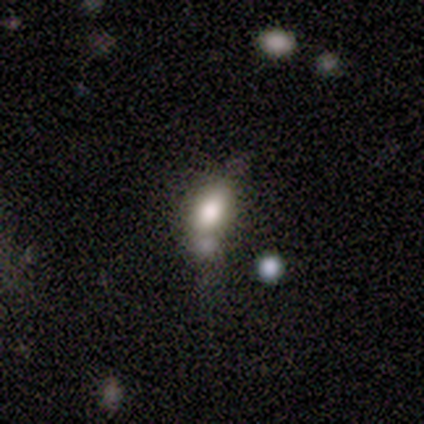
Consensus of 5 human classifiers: smooth_or_featured: smooth (p=0.80) [alt: star or artifact p=0.20]
how_rounded: round (p=0.50) [alt: in between p=0.25]
merging: minor disturbance (p=0.75) [alt: none p=0.25]